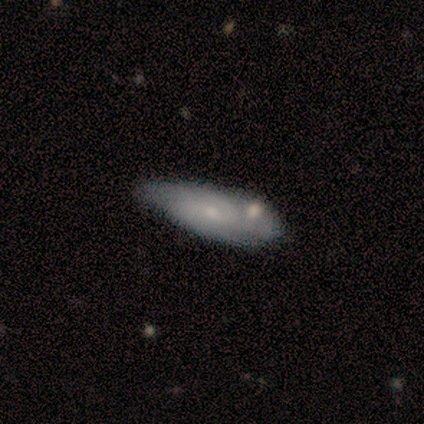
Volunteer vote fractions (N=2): Q: Smooth or featured?
A: smooth (100%)
Q: How rounded?
A: in between (50%); tied with: cigar-shaped (50%)
Q: Merging?
A: minor disturbance (50%); tied with: merger (50%)